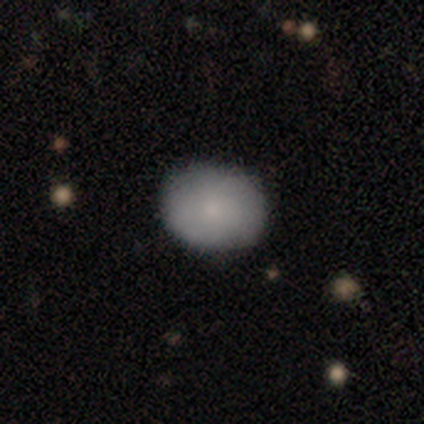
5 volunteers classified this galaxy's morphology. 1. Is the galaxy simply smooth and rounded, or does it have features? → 60% smooth, 40% featured or disk, 0% star or artifact.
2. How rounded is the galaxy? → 67% in between, 33% round, 0% cigar-shaped.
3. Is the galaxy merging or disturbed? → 100% none, 0% minor disturbance, 0% major disturbance, 0% merger.